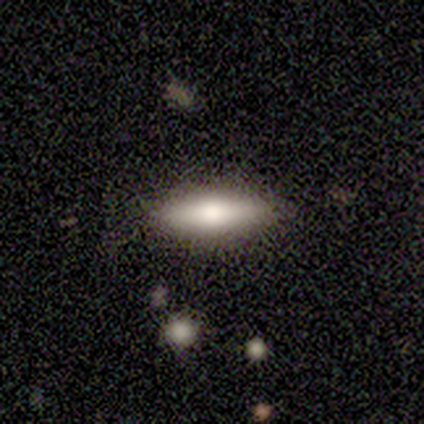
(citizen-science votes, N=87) smooth_or_featured: smooth (p=0.72) [alt: featured or disk p=0.22]
how_rounded: cigar-shaped (p=0.60) [alt: in between p=0.40]
merging: none (p=0.94) [alt: minor disturbance p=0.05]